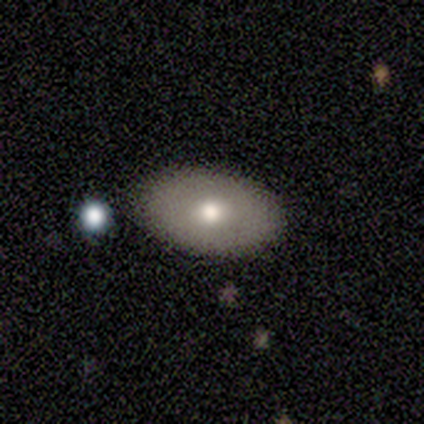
A featured or disk galaxy (80%) viewed edge-on (50%, tied with no) with a rounded central bulge (100%).

Vote fractions:
- Smooth or featured? featured or disk: 80% / smooth: 20% / star or artifact: 0%
- Edge-on disk? yes: 50% (tied) / no: 50% (tied)
- Edge-on bulge? rounded: 100% / boxy: 0% / none: 0%
- Merging? none: 100% / minor disturbance: 0% / major disturbance: 0% / merger: 0%